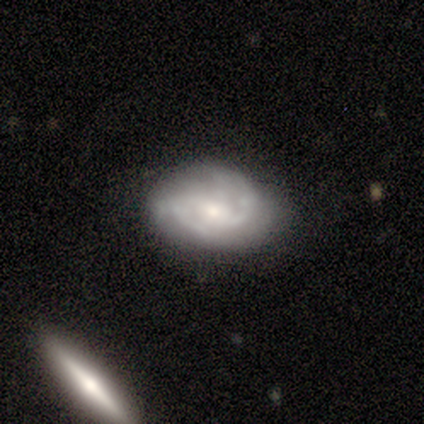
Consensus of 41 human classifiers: smooth_or_featured: featured or disk (p=0.85) [alt: smooth p=0.12]
disk_edge_on: no (p=1.00)
bar: no (p=0.57) [alt: weak p=0.29]
has_spiral_arms: yes (p=0.91) [alt: no p=0.09]
spiral_winding: medium (p=0.53) [alt: tight p=0.41]
spiral_arm_count: 2 (p=0.53) [alt: can't tell p=0.22]
bulge_size: moderate (p=0.51) [alt: small p=0.46]
merging: none (p=0.70) [alt: minor disturbance p=0.20]